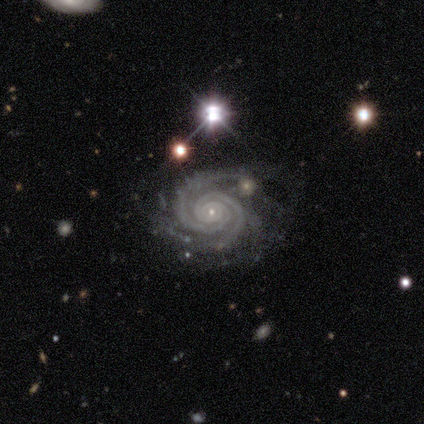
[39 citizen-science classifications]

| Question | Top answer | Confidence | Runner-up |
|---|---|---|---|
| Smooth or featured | featured or disk | 92% | star or artifact (5%) |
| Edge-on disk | no | 100% | — |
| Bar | no | 78% | strong (14%) |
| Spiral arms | yes | 100% | — |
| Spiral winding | tight | 89% | medium (11%) |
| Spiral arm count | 2 | 53% | 4 (17%) |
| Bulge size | small | 81% | moderate (8%) |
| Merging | none | 62% | minor disturbance (22%) |